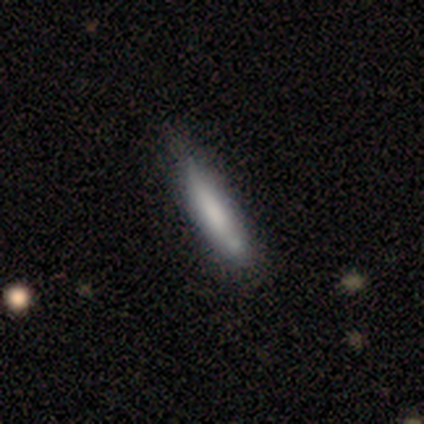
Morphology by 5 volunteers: type=smooth (100%); roundness=cigar-shaped (100%); merging=none (80%).